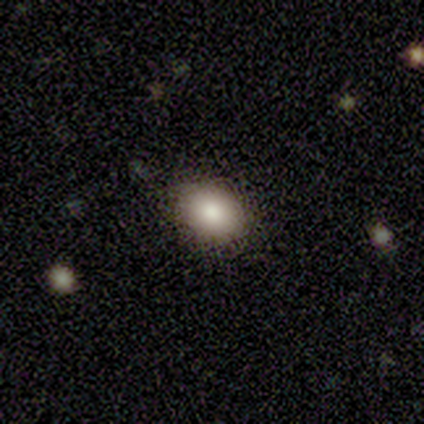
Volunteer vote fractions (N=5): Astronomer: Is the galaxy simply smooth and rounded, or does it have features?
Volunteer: smooth — 80%.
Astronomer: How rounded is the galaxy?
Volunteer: in between — 75%.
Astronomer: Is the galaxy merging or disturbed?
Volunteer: none — 80%.